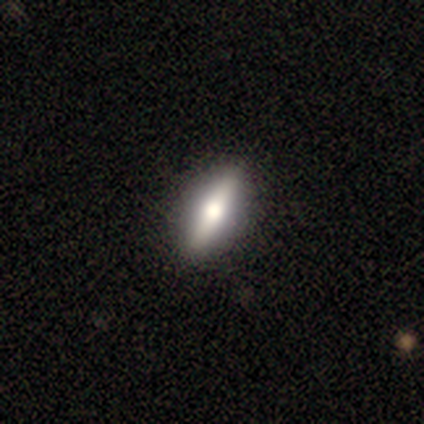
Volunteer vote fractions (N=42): A featured or disk galaxy (57%) viewed edge-on (75%) with a rounded central bulge (89%). Merging: none (95%).